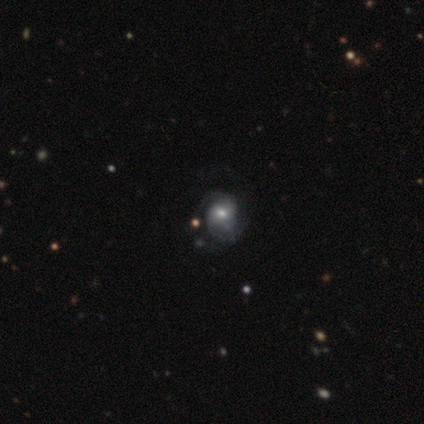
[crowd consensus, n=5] Overall: featured or disk (80%). Edge-on disk: no (100%). Bar: no (100%). Spiral arms: yes (100%). Spiral arm count: 2 (50%, tied with can't tell). Spiral winding: medium (75%). Bulge size: moderate (75%). Merging: none (50%, tied with minor disturbance).